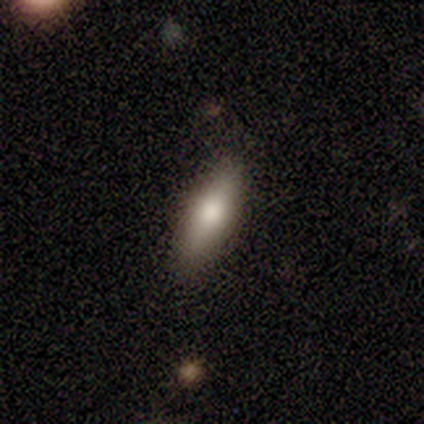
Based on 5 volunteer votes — featured or disk 60%, smooth 40%, star or artifact 0%. Down the decision tree: edge-on disk — yes (100%); edge-on bulge — rounded (100%); merging — none (80%).